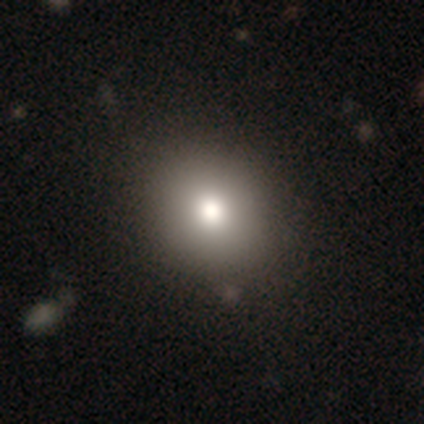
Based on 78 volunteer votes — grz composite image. It shows a smooth galaxy with no disk features (74%) that is round (86%). Merging: none (49%).